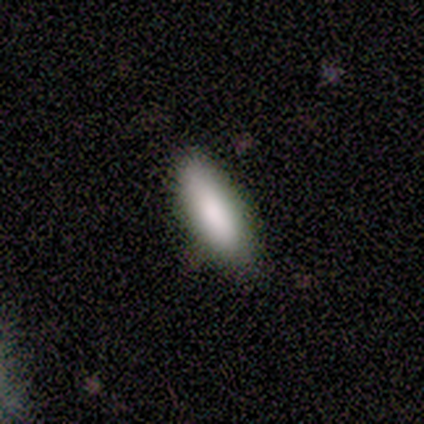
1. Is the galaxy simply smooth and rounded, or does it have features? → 100% smooth, 0% featured or disk, 0% star or artifact.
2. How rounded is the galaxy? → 50% in between (tied), 50% cigar-shaped (tied), 0% round.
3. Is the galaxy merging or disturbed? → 100% none, 0% minor disturbance, 0% major disturbance, 0% merger.